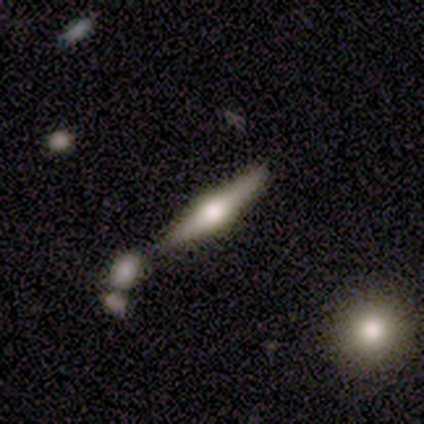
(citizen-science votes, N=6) A featured or disk galaxy (67%) viewed edge-on (100%) with a rounded central bulge (100%).

Vote fractions:
- Smooth or featured? featured or disk: 67% / smooth: 33% / star or artifact: 0%
- Edge-on disk? yes: 100% / no: 0%
- Edge-on bulge? rounded: 100% / boxy: 0% / none: 0%
- Merging? none: 67% / minor disturbance: 17% / merger: 17% / major disturbance: 0%